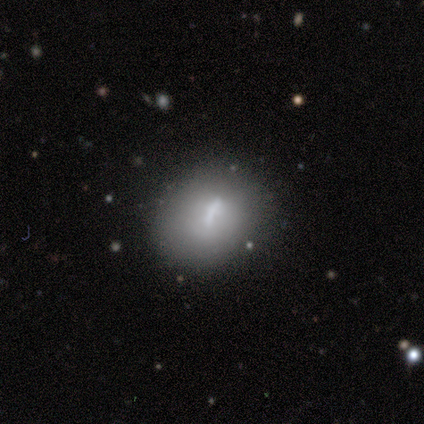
Smooth or featured? smooth (60%)
How rounded? round (100%)
Merging? none (40%)